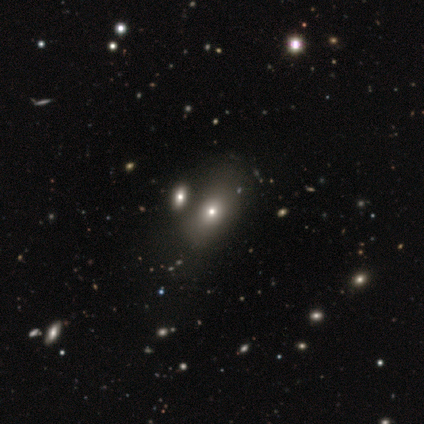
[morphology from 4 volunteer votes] This appears to be a smooth galaxy with no disk features (50%, tied with featured or disk) that is in between round and cigar-shaped (100%). Merging: none (50%).